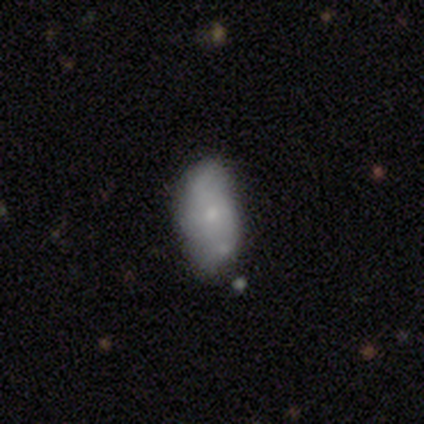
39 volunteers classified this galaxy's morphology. A smooth galaxy with no disk features (51%) that is in between round and cigar-shaped (90%). Merging: none (65%).